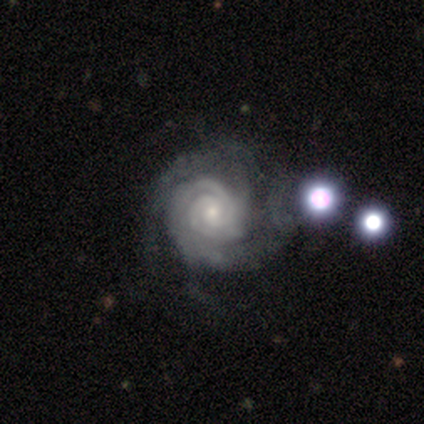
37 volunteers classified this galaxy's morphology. Overall: featured or disk (95%). Edge-on disk: no (100%). Bar: no (74%). Spiral arms: yes (100%). Spiral arm count: 2 (43%; 3 26%). Spiral winding: tight (77%). Bulge size: small (63%; moderate 34%). Merging: none (40%; minor disturbance 17%).